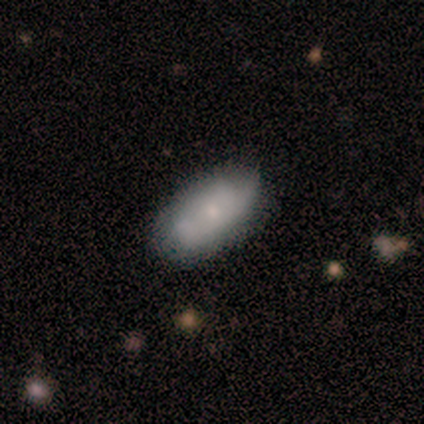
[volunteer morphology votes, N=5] This appears to be a smooth galaxy with no disk features (100%) that is in between round and cigar-shaped (100%). Merging: minor disturbance (80%).